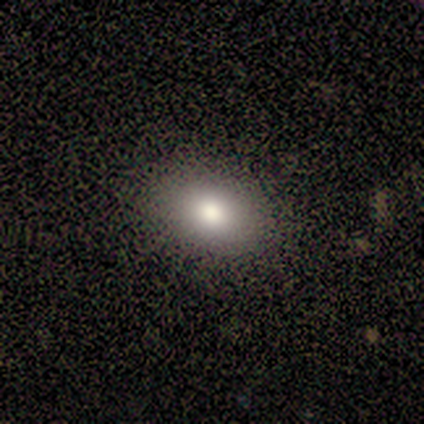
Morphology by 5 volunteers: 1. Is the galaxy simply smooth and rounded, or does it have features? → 100% smooth, 0% featured or disk, 0% star or artifact.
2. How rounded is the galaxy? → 80% in between, 20% round, 0% cigar-shaped.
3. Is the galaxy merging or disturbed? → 80% none, 20% minor disturbance, 0% major disturbance, 0% merger.